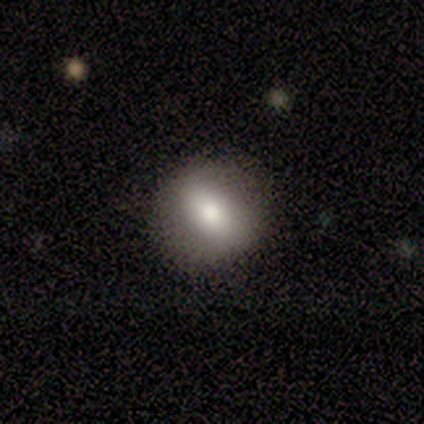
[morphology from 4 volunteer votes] smooth 50% (tied), featured or disk 50% (tied), star or artifact 0%. Down the decision tree: how rounded — round (50%, tied with in between); merging — none (75%).